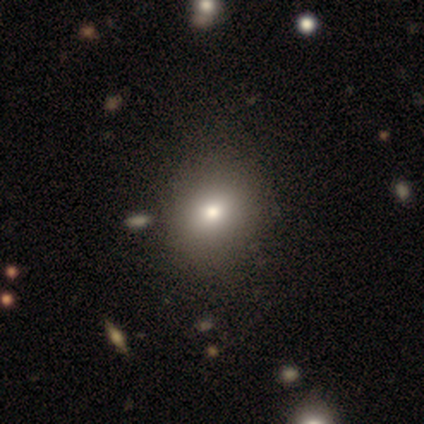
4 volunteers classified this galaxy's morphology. smooth_or_featured: smooth (p=0.50) [tied with: star or artifact p=0.50]
how_rounded: round (p=1.00)
merging: none (p=1.00)